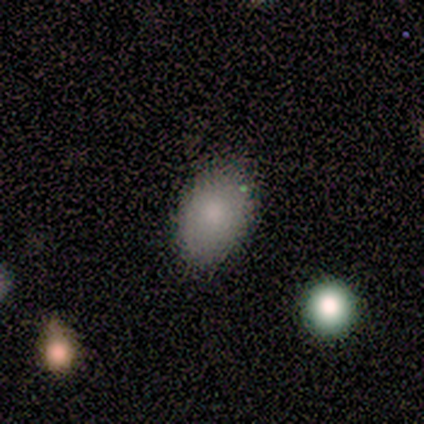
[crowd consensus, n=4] smooth_or_featured: smooth (p=0.50) [tied with: star or artifact p=0.50]
how_rounded: in between (p=1.00)
merging: none (p=1.00)